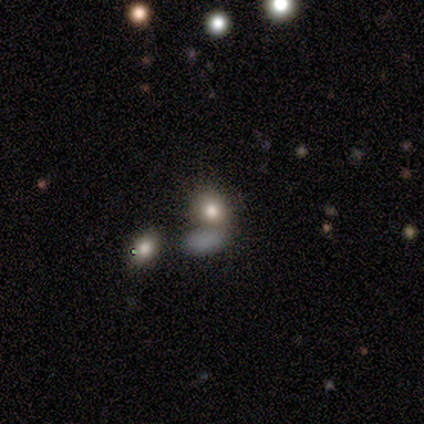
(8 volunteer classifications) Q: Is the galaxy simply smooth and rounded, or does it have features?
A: smooth — 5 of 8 (62%).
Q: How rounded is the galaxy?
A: in between — 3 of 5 (60%).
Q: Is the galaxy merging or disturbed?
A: none — 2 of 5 (40%, tied with merger).